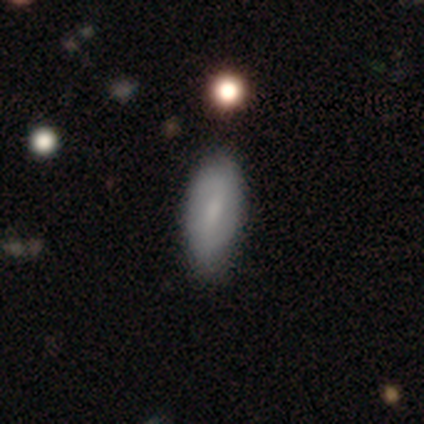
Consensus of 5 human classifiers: A smooth galaxy with no disk features (60%) that is in between round and cigar-shaped (100%).

Vote fractions:
- Smooth or featured? smooth: 60% / featured or disk: 40% / star or artifact: 0%
- How rounded? in between: 100% / round: 0% / cigar-shaped: 0%
- Merging? none: 60% / minor disturbance: 40% / major disturbance: 0% / merger: 0%